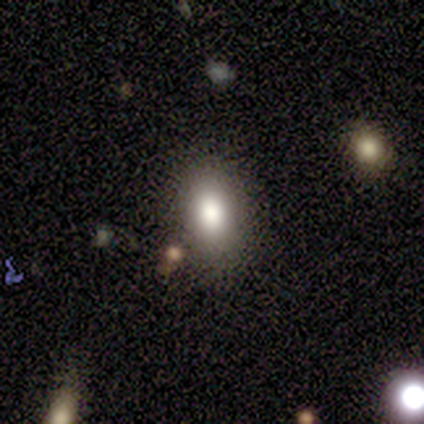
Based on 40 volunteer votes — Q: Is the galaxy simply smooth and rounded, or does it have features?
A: smooth — 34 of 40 (85%).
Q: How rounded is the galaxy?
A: in between — 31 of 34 (91%).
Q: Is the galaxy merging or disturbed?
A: none — 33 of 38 (87%).